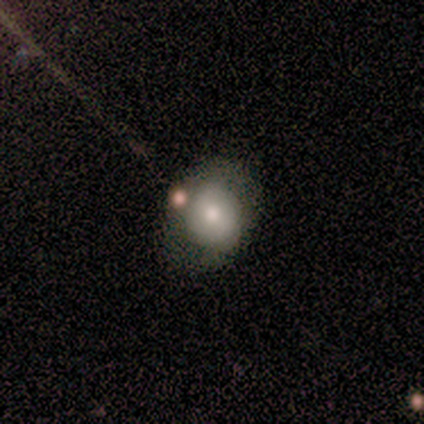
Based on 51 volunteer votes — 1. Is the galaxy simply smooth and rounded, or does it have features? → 53% smooth, 41% featured or disk, 6% star or artifact.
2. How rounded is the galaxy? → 70% round, 26% in between, 4% cigar-shaped.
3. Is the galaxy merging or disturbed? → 71% none, 12% merger, 10% minor disturbance, 6% major disturbance.